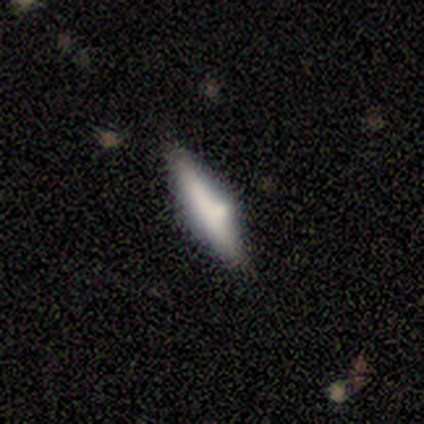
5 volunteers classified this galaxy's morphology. A smooth galaxy with no disk features (60%) that is cigar-shaped (67%). Merging: none (60%).